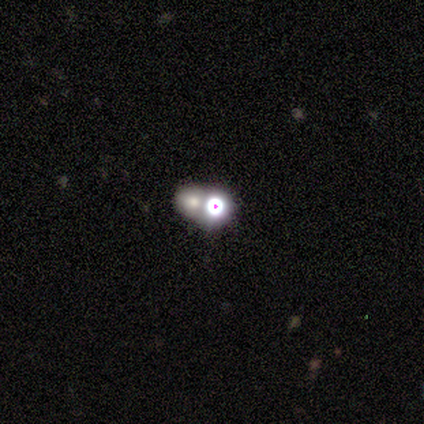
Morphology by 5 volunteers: type=featured or disk (80%); edge-on=no (100%); bar=no (100%); spiral arms=no (100%); bulge=large (50%); merging=merger (100%).